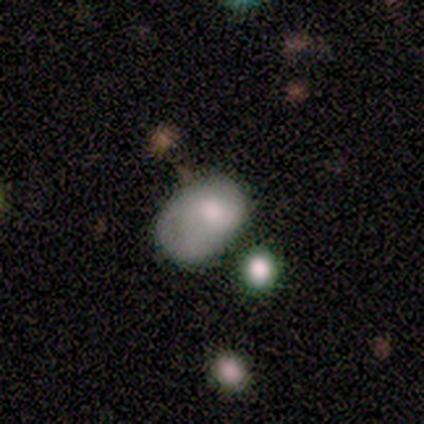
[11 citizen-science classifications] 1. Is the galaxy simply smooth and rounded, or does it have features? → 64% smooth, 27% featured or disk, 9% star or artifact.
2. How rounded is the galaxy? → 100% in between, 0% round, 0% cigar-shaped.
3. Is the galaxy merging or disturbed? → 50% none, 20% minor disturbance, 20% major disturbance, 10% merger.